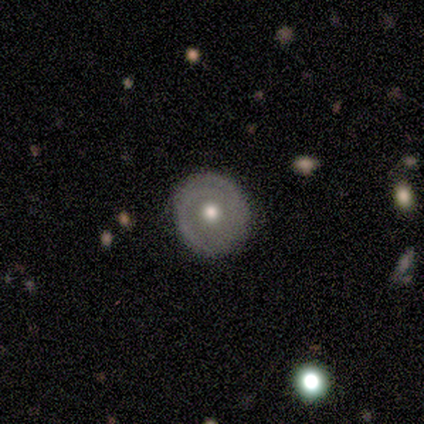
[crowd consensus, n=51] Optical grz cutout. It shows a featured or disk galaxy (73%) with no bar (92%), 2 (55%) tight (73%) spiral arms (59%) and a moderate central bulge (76%). Merging: none (84%).